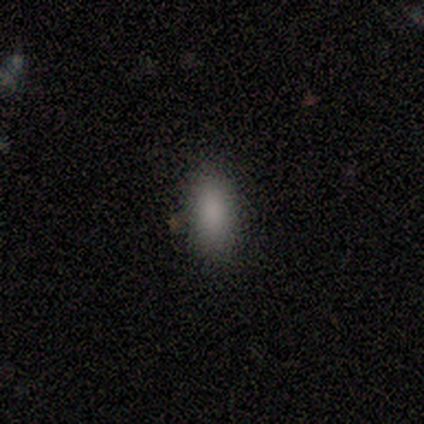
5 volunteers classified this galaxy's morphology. Overall: smooth (100%). How rounded: in between (100%). Merging: none (60%; minor disturbance 40%).